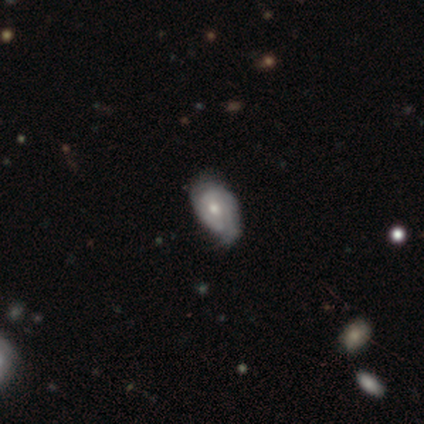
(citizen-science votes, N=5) A featured or disk galaxy (60%) with no bar (100%), 2 (50%, tied with can't tell) tight (100%) spiral arms (67%) and a small central bulge (67%).

Vote fractions:
- Smooth or featured? featured or disk: 60% / smooth: 20% / star or artifact: 20%
- Edge-on disk? no: 100% / yes: 0%
- Bar? no: 100% / strong: 0% / weak: 0%
- Spiral arms? yes: 67% / no: 33%
- Spiral winding? tight: 100% / medium: 0% / loose: 0%
- Spiral arm count? 2: 50% (tied) / can't tell: 50% (tied) / 1: 0% / 3: 0% / 4: 0% / more than 4: 0%
- Bulge size? small: 67% / moderate: 33% / dominant: 0% / large: 0% / none: 0%
- Merging? minor disturbance: 75% / none: 25% / major disturbance: 0% / merger: 0%